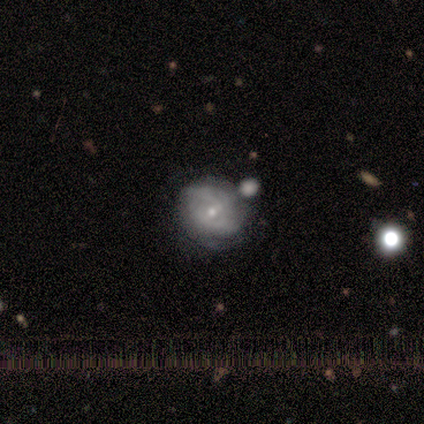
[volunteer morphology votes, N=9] Volunteers were most divided on "merging": none: 56%, minor disturbance: 44%, major disturbance: 0%, merger: 0%. More confident: edge-on disk — no (100%); smooth or featured — featured or disk (89%); bulge size — small (88%); bar — no (75%); spiral arms — no (62%).